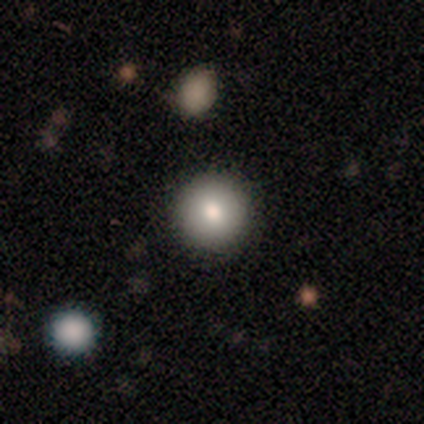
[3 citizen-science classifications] smooth-or-featured: smooth: 67% | featured or disk: 33% | star or artifact: 0%
  how-rounded: round: 100% | in between: 0% | cigar-shaped: 0%
  merging: none: 100% | minor disturbance: 0% | major disturbance: 0% | merger: 0%